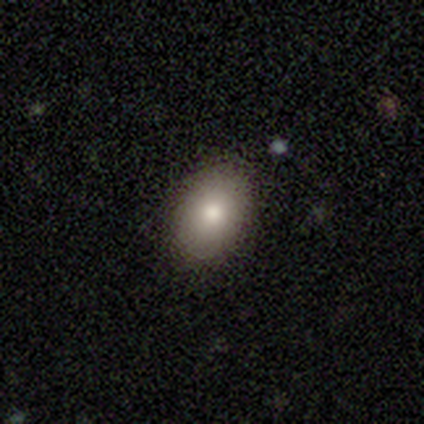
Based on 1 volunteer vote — Overall: featured or disk (100%). Edge-on disk: no (100%). Bar: no (100%). Spiral arms: no (100%). Bulge size: moderate (100%). Merging: none (100%).